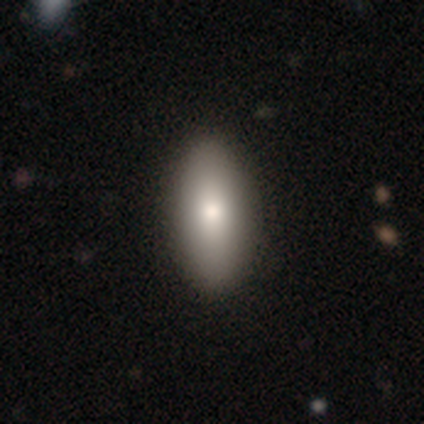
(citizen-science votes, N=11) A smooth galaxy with no disk features (82%) that is in between round and cigar-shaped (78%). Merging: none (90%).